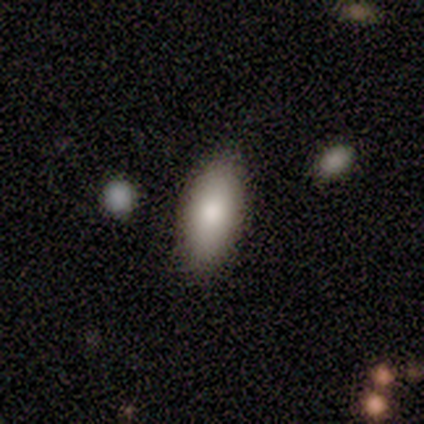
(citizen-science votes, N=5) A smooth galaxy with no disk features (80%) that is in between round and cigar-shaped (100%). Merging: none (50%, tied with minor disturbance).